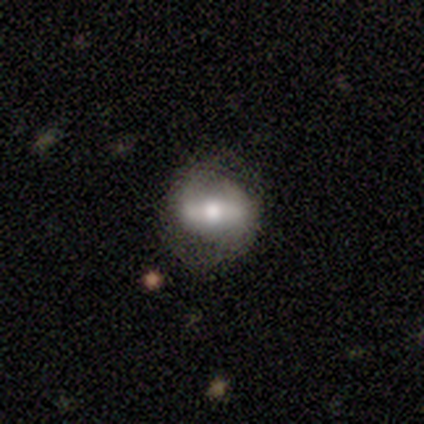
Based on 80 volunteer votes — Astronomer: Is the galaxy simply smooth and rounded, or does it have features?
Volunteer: featured or disk — 60% (runner-up: smooth, 36%).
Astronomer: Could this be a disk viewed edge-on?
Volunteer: no — 79%.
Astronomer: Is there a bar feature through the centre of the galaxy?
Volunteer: strong — 55%.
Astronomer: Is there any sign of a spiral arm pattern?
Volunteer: no — 58% (runner-up: yes, 42%).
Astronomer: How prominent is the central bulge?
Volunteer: moderate — 61%.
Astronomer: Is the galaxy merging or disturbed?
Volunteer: none — 31% (runner-up: minor disturbance, 10%).